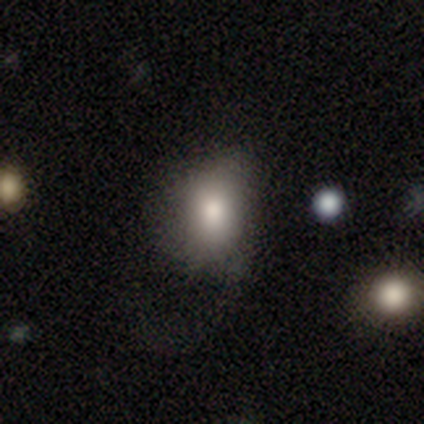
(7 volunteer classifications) smooth 43%, featured or disk 29%, star or artifact 29%. Down the decision tree: how rounded — in between (100%); merging — none (60%).